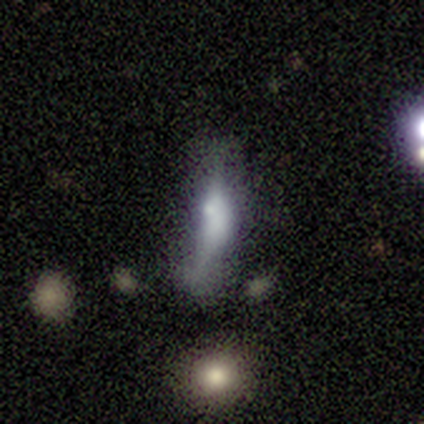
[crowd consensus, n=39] A featured or disk galaxy (41%) viewed edge-on (62%) with a rounded central bulge (50%).

Vote fractions:
- Smooth or featured? featured or disk: 41% / smooth: 38% / star or artifact: 21%
- Edge-on disk? yes: 62% / no: 38%
- Edge-on bulge? rounded: 50% / boxy: 30% / none: 20%
- Merging? minor disturbance: 39% / none: 35% / major disturbance: 13% / merger: 13%